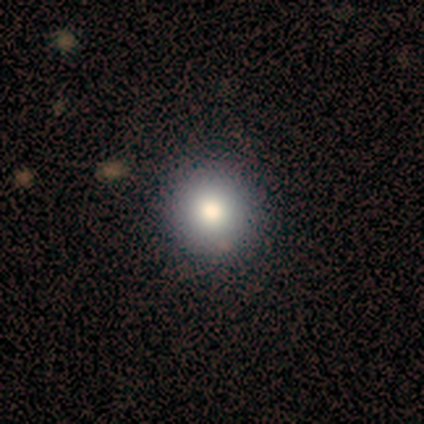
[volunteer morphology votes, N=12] A smooth galaxy with no disk features (83%) that is round (100%). Merging: none (100%).